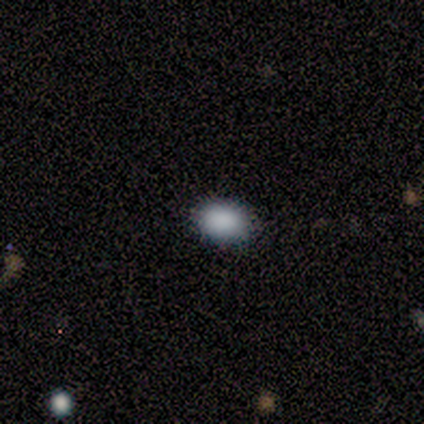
Smooth or featured? star or artifact (100%)